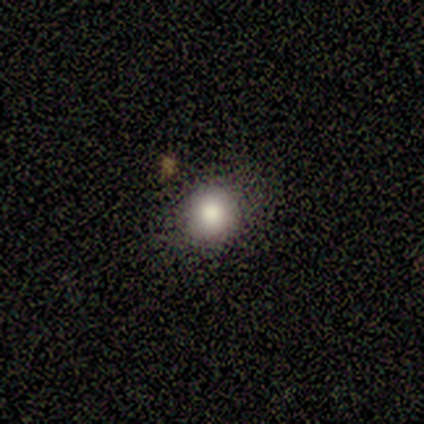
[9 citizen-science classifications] This appears to be a smooth galaxy with no disk features (78%) that is round (100%). Merging: none (100%).